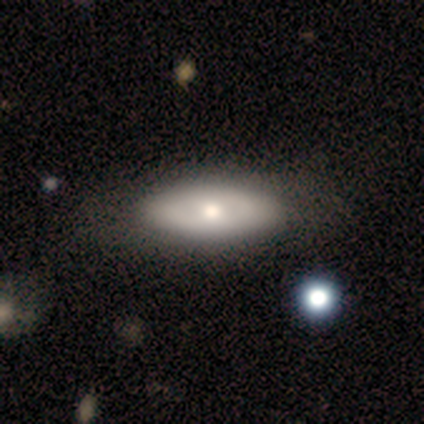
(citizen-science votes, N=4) Volunteers were most divided on "smooth or featured": smooth: 75%, featured or disk: 25%, star or artifact: 0%. More confident: how rounded — in between (100%); merging — none (75%).